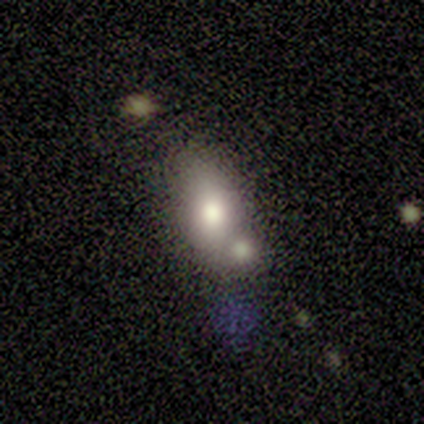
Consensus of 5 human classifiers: Smooth or featured? smooth (80%)
How rounded? in between (75%)
Merging? merger (100%)